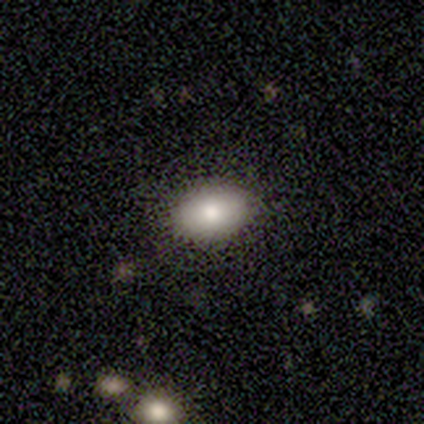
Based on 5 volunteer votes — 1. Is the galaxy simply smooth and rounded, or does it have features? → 100% smooth, 0% featured or disk, 0% star or artifact.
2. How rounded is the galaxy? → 100% in between, 0% round, 0% cigar-shaped.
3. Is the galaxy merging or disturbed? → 80% none, 20% minor disturbance, 0% major disturbance, 0% merger.